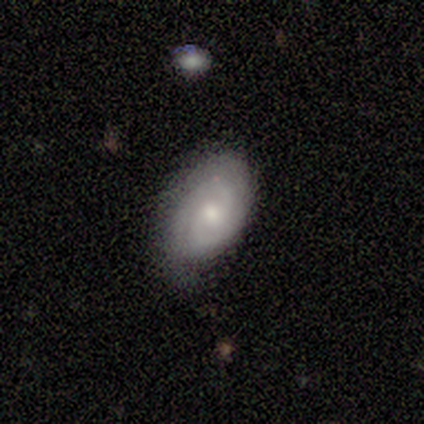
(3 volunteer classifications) A featured or disk galaxy (67%) with a weak bar (100%), 2 (100%) medium (100%) spiral arms (100%) and a moderate central bulge (50%, tied with small).

Vote fractions:
- Smooth or featured? featured or disk: 67% / star or artifact: 33% / smooth: 0%
- Edge-on disk? no: 100% / yes: 0%
- Bar? weak: 100% / strong: 0% / no: 0%
- Spiral arms? yes: 100% / no: 0%
- Spiral winding? medium: 100% / tight: 0% / loose: 0%
- Spiral arm count? 2: 100% / 1: 0% / 3: 0% / 4: 0% / more than 4: 0% / can't tell: 0%
- Bulge size? moderate: 50% (tied) / small: 50% (tied) / dominant: 0% / large: 0% / none: 0%
- Merging? none: 50% (tied) / minor disturbance: 50% (tied) / major disturbance: 0% / merger: 0%